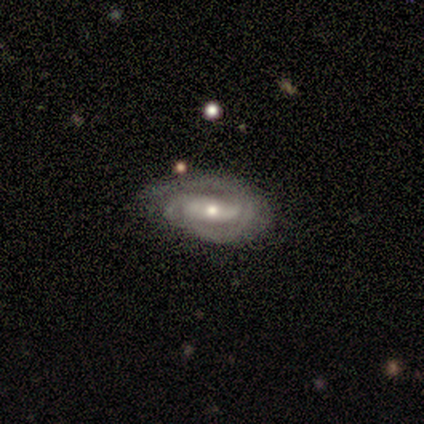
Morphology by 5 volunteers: Overall: featured or disk (80%). Edge-on disk: no (100%). Bar: no (50%; strong 25%). Spiral arms: yes (75%). Spiral arm count: 1 (67%; 2 33%). Spiral winding: medium (100%). Bulge size: moderate (50%, tied with small). Merging: minor disturbance (100%).